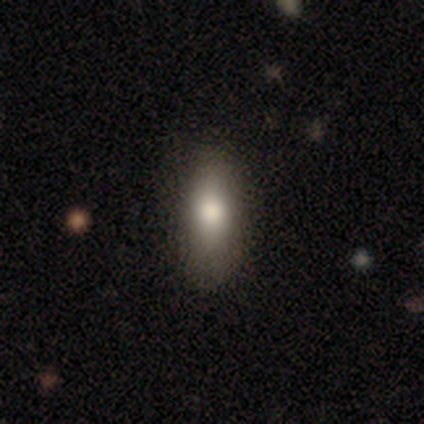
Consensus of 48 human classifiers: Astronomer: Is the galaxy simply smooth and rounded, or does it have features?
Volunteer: smooth — 77%.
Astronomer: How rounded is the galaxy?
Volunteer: in between — 57% (runner-up: cigar-shaped, 43%).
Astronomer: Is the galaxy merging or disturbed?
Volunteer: none — 72%.